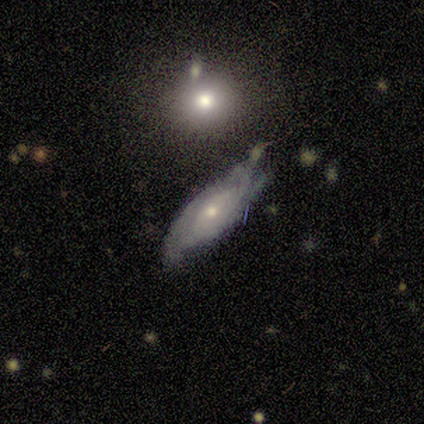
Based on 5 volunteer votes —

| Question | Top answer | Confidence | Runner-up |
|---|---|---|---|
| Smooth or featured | featured or disk | 80% | star or artifact (20%) |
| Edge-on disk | yes | 75% | no (25%) |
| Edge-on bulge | rounded | 100% | — |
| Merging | none | 75% | minor disturbance (25%) |